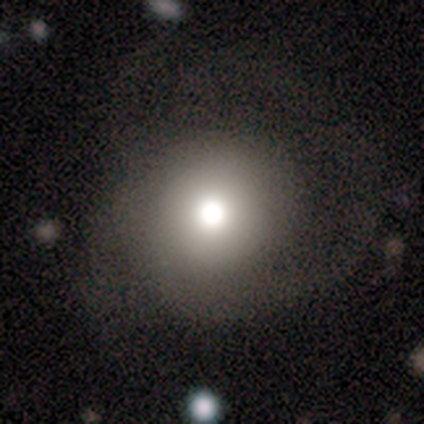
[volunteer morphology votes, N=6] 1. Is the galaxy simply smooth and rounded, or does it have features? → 67% featured or disk, 17% smooth, 17% star or artifact.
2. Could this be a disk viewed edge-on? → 100% no, 0% yes.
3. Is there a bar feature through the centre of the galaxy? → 100% no, 0% strong, 0% weak.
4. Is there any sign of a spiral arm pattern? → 75% yes, 25% no.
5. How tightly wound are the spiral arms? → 67% loose, 33% medium, 0% tight.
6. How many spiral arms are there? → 100% 2, 0% 1, 0% 3, 0% 4, 0% more than 4, 0% can't tell.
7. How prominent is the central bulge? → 50% dominant, 25% moderate, 25% small, 0% large, 0% none.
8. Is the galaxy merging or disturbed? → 40% minor disturbance (tied), 40% major disturbance (tied), 20% none, 0% merger.